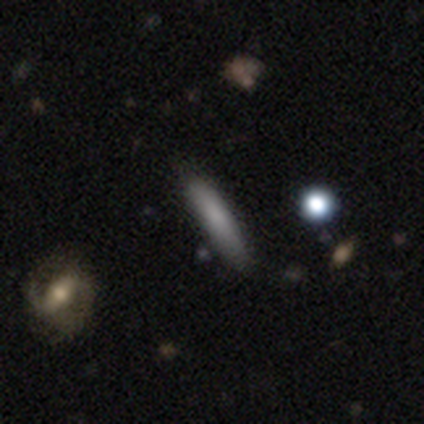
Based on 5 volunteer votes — Smooth or featured?
  - smooth: 80% *
  - featured or disk: 20%
  - star or artifact: 0%
How rounded?
  - cigar-shaped: 100% *
  - round: 0%
  - in between: 0%
Merging?
  - none: 60% *
  - major disturbance: 20%
  - merger: 20%
  - minor disturbance: 0%